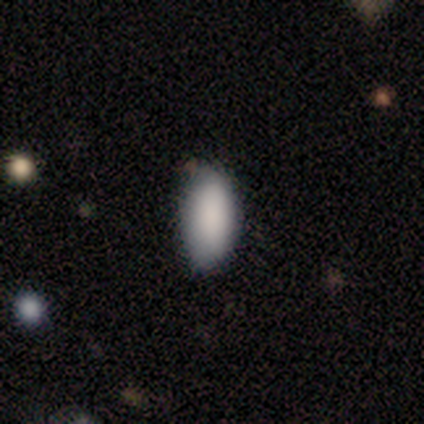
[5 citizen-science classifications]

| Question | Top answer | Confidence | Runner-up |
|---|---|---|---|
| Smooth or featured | smooth | 100% | — |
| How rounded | in between | 100% | — |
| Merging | none | 60% | minor disturbance (40%) |